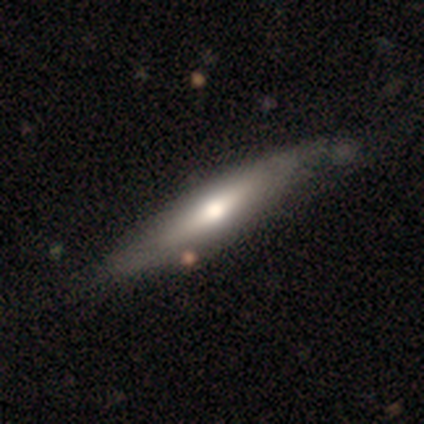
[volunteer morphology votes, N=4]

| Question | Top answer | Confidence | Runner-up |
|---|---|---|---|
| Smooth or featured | featured or disk | 50% | smooth (25%) |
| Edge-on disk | yes | 100% | — |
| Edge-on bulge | none | 50% | tied: rounded (50%) |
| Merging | none | 67% | minor disturbance (33%) |